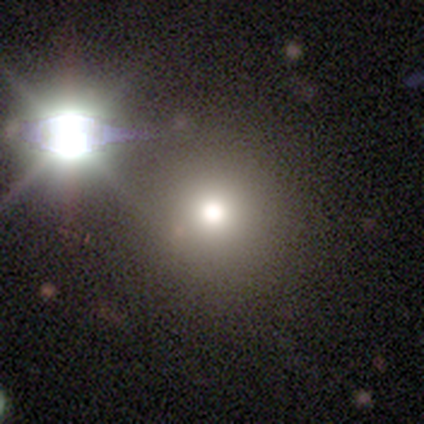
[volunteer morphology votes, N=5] Smooth or featured? smooth (60%)
How rounded? round (100%)
Merging? none (100%)